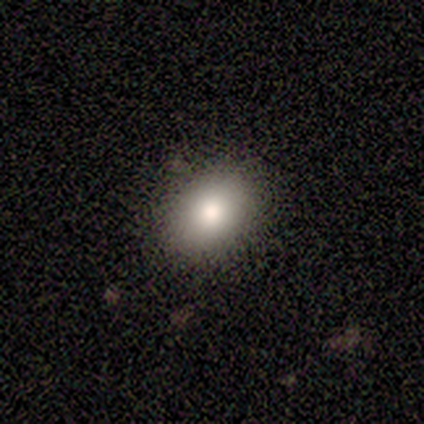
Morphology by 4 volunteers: Overall: smooth (75%). How rounded: in between (67%; round 33%). Merging: none (100%).